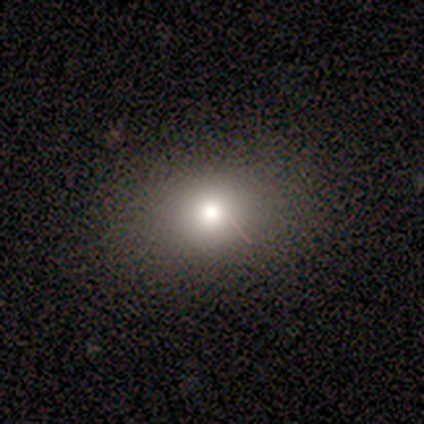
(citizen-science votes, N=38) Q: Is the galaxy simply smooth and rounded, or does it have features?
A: smooth — 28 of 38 (74%).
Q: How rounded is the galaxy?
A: round — 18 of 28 (64%).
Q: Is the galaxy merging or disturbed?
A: none — 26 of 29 (90%).